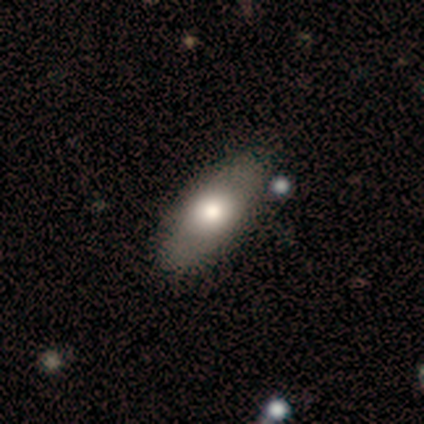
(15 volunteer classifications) smooth 87%, featured or disk 13%, star or artifact 0%. Down the decision tree: how rounded — in between (85%); merging — none (87%).